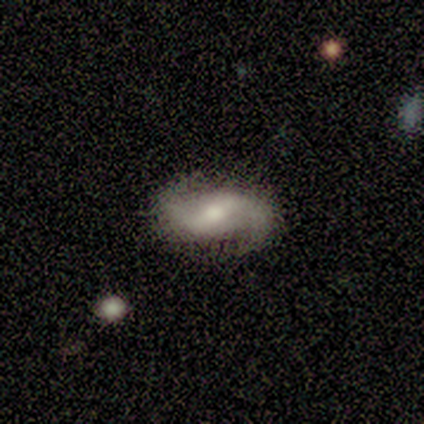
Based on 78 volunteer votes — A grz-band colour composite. It shows a featured or disk galaxy (83%) with a weak bar (49%), 2 (95%) loose (70%) spiral arms (100%) and a moderate central bulge (63%). Merging: none (43%).